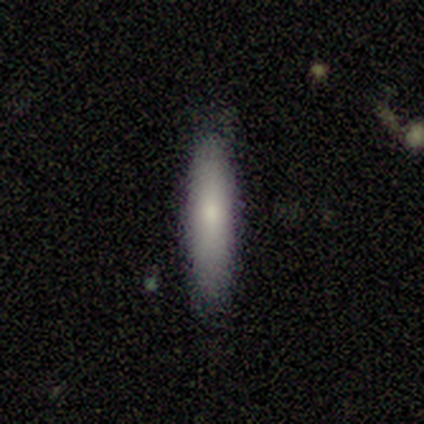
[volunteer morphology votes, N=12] Overall: smooth (92%). How rounded: cigar-shaped (91%). Merging: none (100%).